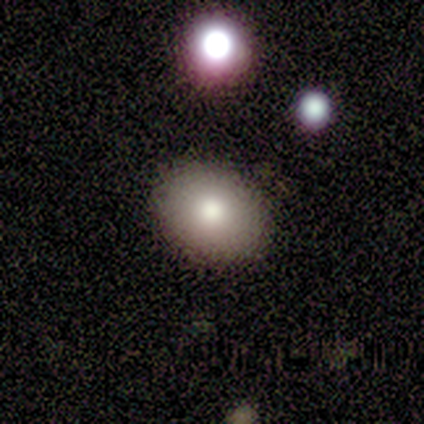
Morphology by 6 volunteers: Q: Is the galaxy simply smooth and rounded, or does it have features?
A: smooth — 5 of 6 (83%).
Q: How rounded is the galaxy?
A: round — 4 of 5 (80%).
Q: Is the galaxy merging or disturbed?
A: none — 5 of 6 (83%).